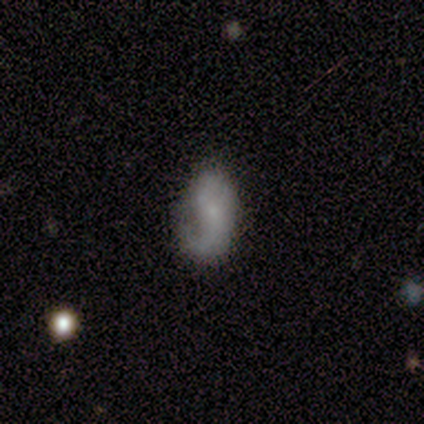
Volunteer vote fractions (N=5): Smooth or featured? smooth (80%)
How rounded? in between (100%)
Merging? none (40%, tied with minor disturbance)